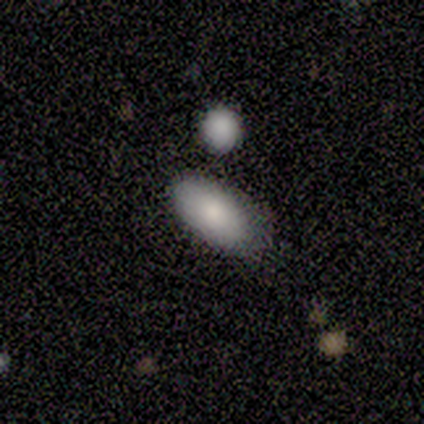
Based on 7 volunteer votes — Volunteers were most divided on "merging": none: 71%, minor disturbance: 14%, major disturbance: 14%, merger: 0%. More confident: how rounded — in between (100%); smooth or featured — smooth (86%).